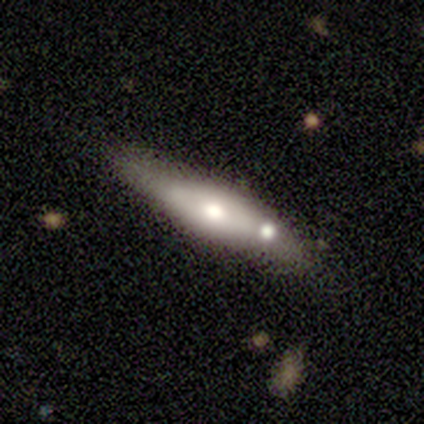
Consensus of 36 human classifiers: A smooth galaxy with no disk features (50%) that is cigar-shaped (72%). Merging: none (69%).